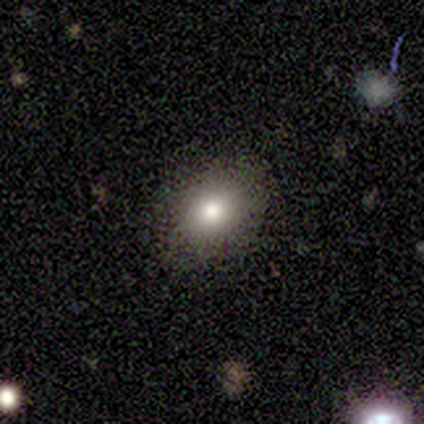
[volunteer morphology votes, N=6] This appears to be a smooth galaxy with no disk features (83%) that is in between round and cigar-shaped (80%). Merging: none (100%).